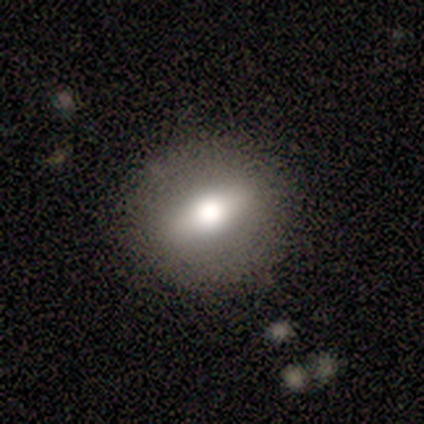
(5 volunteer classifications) Morphology: type=smooth (60%); roundness=in between (67%); merging=none (80%).